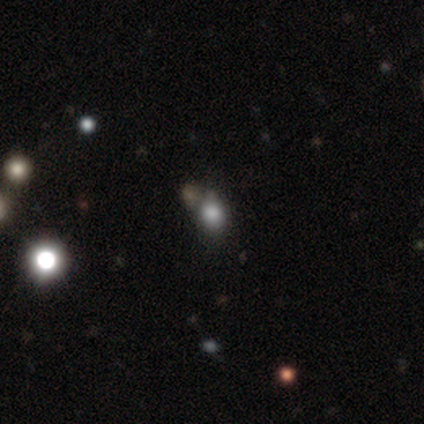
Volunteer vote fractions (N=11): Smooth or featured? smooth (73%)
How rounded? round (75%)
Merging? none (88%)